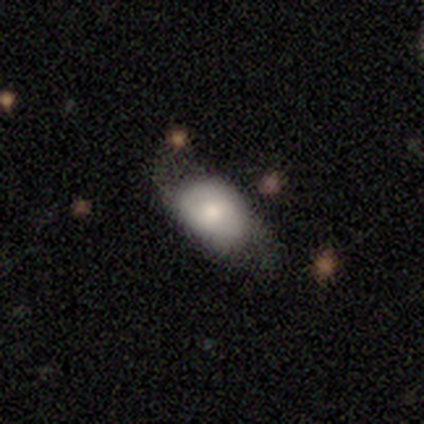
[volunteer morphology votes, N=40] smooth_or_featured: smooth (p=0.60) [alt: featured or disk p=0.30]
how_rounded: in between (p=0.96) [alt: round p=0.04]
merging: none (p=0.56) [alt: minor disturbance p=0.31]